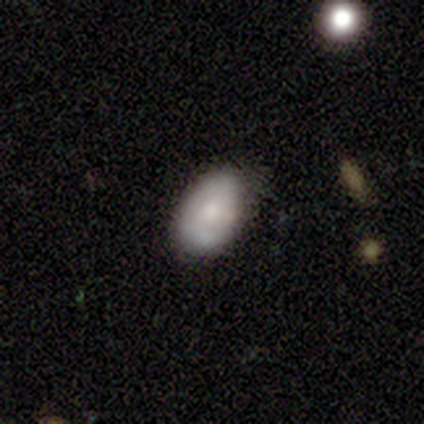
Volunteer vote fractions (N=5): A featured or disk galaxy (80%) viewed edge-on (50%, tied with no) with a boxy central bulge (50%, tied with none).

Vote fractions:
- Smooth or featured? featured or disk: 80% / smooth: 20% / star or artifact: 0%
- Edge-on disk? yes: 50% (tied) / no: 50% (tied)
- Edge-on bulge? boxy: 50% (tied) / none: 50% (tied) / rounded: 0%
- Merging? none: 40% (tied) / minor disturbance: 40% (tied) / major disturbance: 20% / merger: 0%